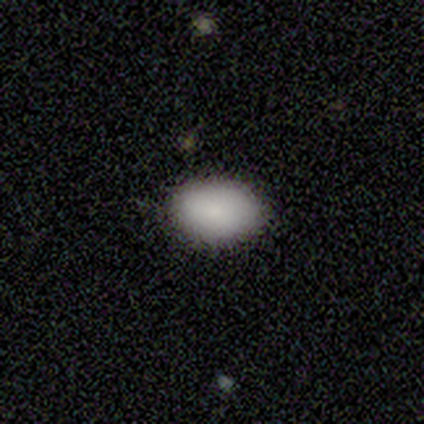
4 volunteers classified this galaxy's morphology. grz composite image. It shows a smooth galaxy with no disk features (100%) that is in between round and cigar-shaped (100%). Merging: none (100%).